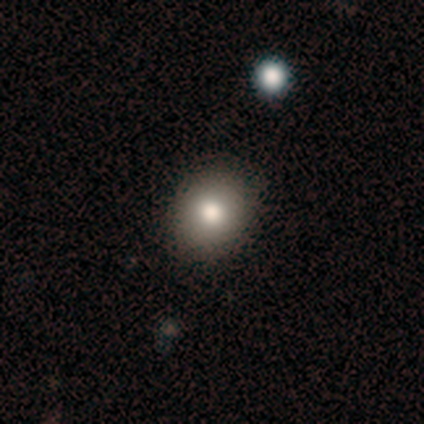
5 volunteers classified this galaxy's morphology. Volunteers were most divided on "smooth or featured": smooth: 60%, featured or disk: 40%, star or artifact: 0%. More confident: how rounded — round (100%); merging — none (80%).